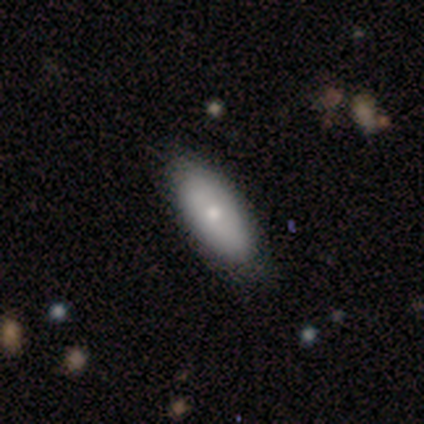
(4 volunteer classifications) Smooth or featured: featured or disk — 75% (star or artifact — 25%)
Edge-on disk: yes — 67% (no — 33%)
Edge-on bulge: rounded — 100%
Merging: none — 67% (minor disturbance — 33%)